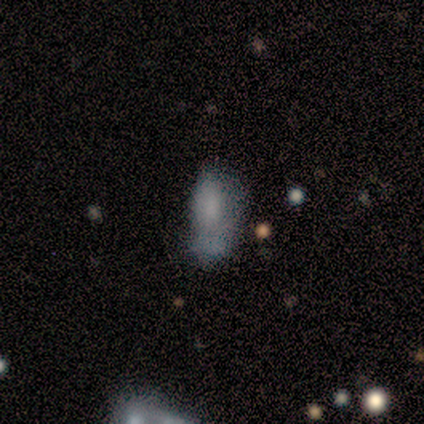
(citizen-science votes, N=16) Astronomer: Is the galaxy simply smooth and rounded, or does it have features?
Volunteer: smooth — 88%.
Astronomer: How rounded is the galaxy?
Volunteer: in between — 93%.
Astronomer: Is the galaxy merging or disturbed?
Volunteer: none — 40% (runner-up: minor disturbance, 27%).